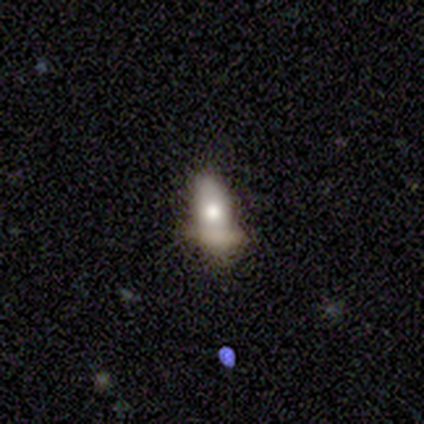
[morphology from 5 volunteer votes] This is clearly a smooth galaxy (80%). How rounded: likely in between (75%). Merging: likely major disturbance (60%).